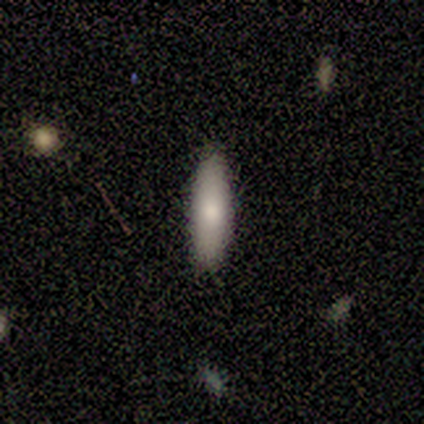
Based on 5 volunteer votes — This is likely a smooth galaxy (60%). How rounded: likely in between (67%). Merging: clearly none (100%).